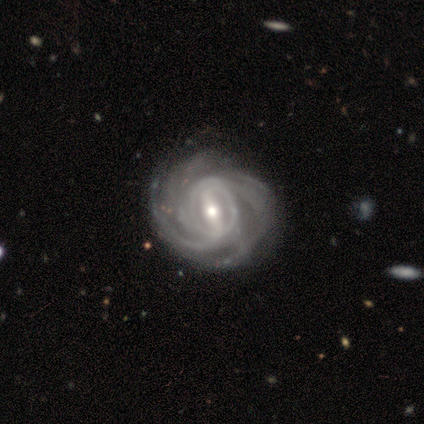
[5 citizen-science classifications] smooth-or-featured: featured or disk: 100% | smooth: 0% | star or artifact: 0%
  disk-edge-on: no: 100% | yes: 0%
    bar: strong: 80% | weak: 20% | no: 0%
    has-spiral-arms: yes: 100% | no: 0%
      spiral-winding: tight: 100% | medium: 0% | loose: 0%
      spiral-arm-count: 3: 60% | 4: 40% | 1: 0% | 2: 0% | more than 4: 0% | can't tell: 0%
    bulge-size: moderate: 80% | small: 20% | dominant: 0% | large: 0% | none: 0%
  merging: none: 80% | minor disturbance: 20% | major disturbance: 0% | merger: 0%